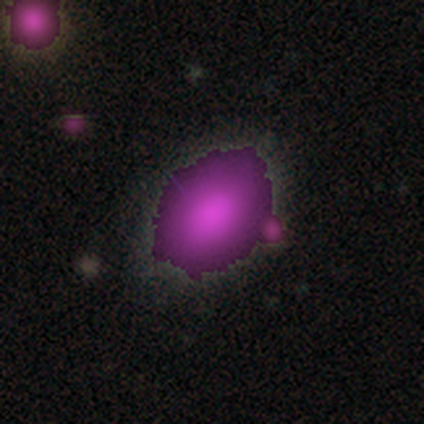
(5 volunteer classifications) Morphology: type=smooth (40%, tied with star or artifact); roundness=in between (100%); merging=none (67%).